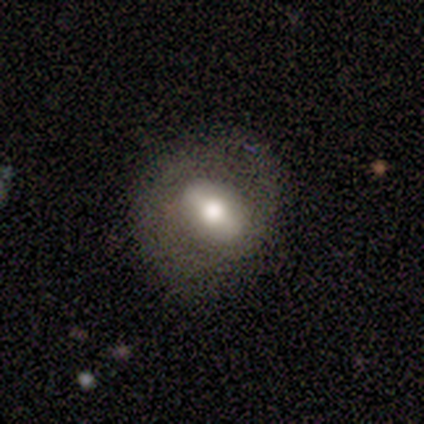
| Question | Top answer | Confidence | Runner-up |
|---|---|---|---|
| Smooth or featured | featured or disk | 80% | smooth (20%) |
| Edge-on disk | no | 100% | — |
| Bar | strong | 75% | weak (25%) |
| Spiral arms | yes | 75% | no (25%) |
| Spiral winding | tight | 67% | loose (33%) |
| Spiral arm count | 1 | 33% | tied: 2 (33%), can't tell (33%) |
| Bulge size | large | 50% | dominant (25%) |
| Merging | none | 80% | minor disturbance (20%) |